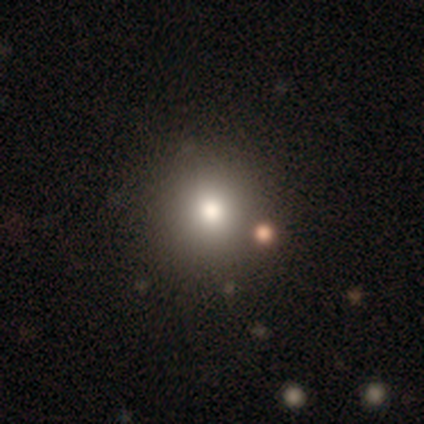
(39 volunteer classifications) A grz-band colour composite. It shows a smooth galaxy with no disk features (67%) that is round (96%). Merging: none (93%).